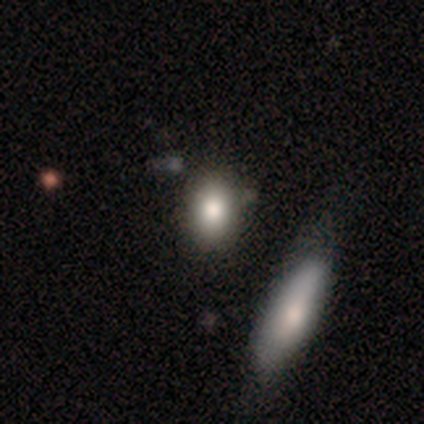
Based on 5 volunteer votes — Smooth or featured: smooth — 100%
How rounded: in between — 60% (round — 20%)
Merging: none — 80% (merger — 20%)